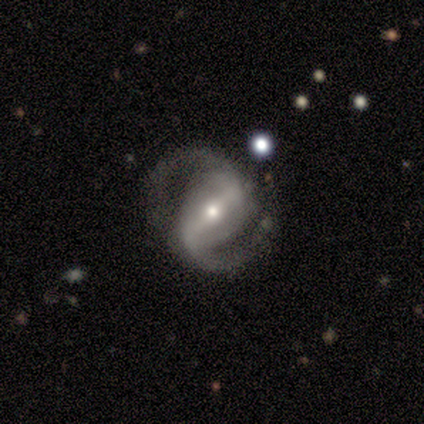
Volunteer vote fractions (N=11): Morphology: type=featured or disk (100%); edge-on=no (100%); bar=strong (64%); spiral arms=yes (100%); winding=medium (55%); arm count=2 (100%); bulge=small (73%); merging=none (82%).